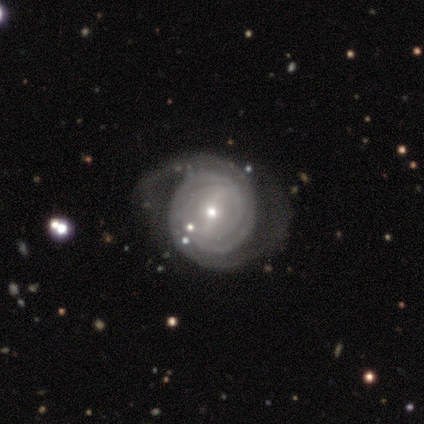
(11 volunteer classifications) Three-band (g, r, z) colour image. It shows a featured or disk galaxy (100%) with a strong bar (64%), 2 (64%) tight (73%) spiral arms (100%) and a small central bulge (73%). Merging: none (64%).